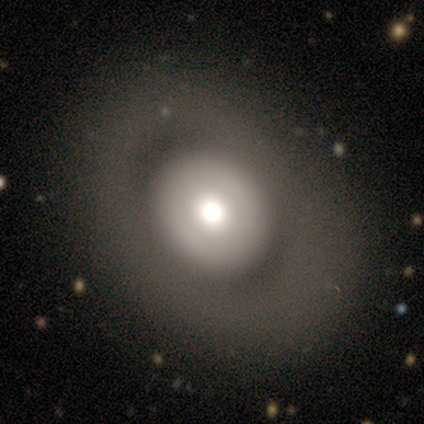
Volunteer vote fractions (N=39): Q: Smooth or featured?
A: featured or disk (49%); runner-up: smooth (44%)
Q: Edge-on disk?
A: no (100%)
Q: Bar?
A: no (89%); runner-up: strong (11%)
Q: Spiral arms?
A: no (95%); runner-up: yes (5%)
Q: Bulge size?
A: large (63%); runner-up: moderate (21%)
Q: Merging?
A: none (81%); runner-up: minor disturbance (11%)